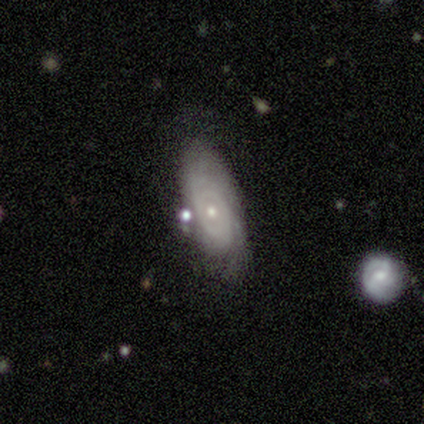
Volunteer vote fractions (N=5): featured or disk 80%, smooth 20%, star or artifact 0%. Down the decision tree: edge-on disk — no (100%); bar — no (100%); spiral arms — yes (100%); spiral arm count — can't tell (100%); spiral winding — tight (75%); bulge size — moderate (50%, tied with small); merging — none (80%).